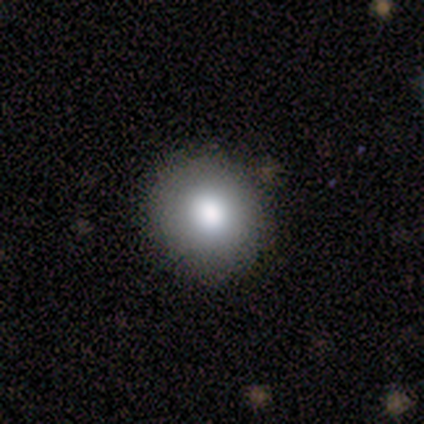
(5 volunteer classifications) Volunteers were most divided on "smooth or featured": smooth: 80%, star or artifact: 20%, featured or disk: 0%. More confident: how rounded — round (100%); merging — none (100%).